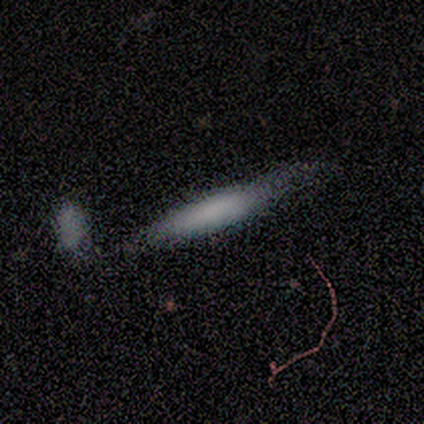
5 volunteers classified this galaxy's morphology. smooth-or-featured: smooth: 80% | featured or disk: 20% | star or artifact: 0%
  how-rounded: cigar-shaped: 75% | in between: 25% | round: 0%
  merging: none: 40% | minor disturbance: 20% | major disturbance: 20% | merger: 20%